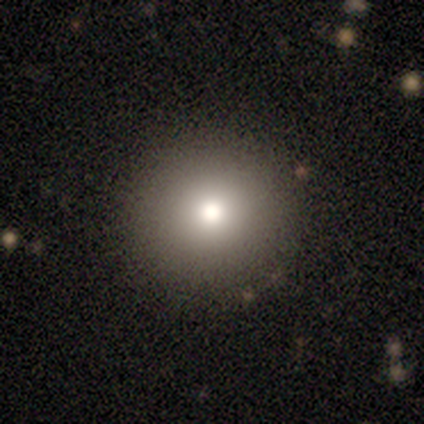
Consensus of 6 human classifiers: smooth 67%, featured or disk 33%, star or artifact 0%. Down the decision tree: how rounded — round (100%); merging — none (100%).